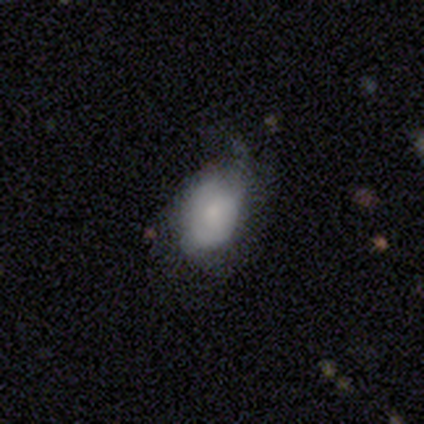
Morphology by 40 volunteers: This appears to be a smooth galaxy with no disk features (70%) that is in between round and cigar-shaped (79%). Merging: minor disturbance (62%).